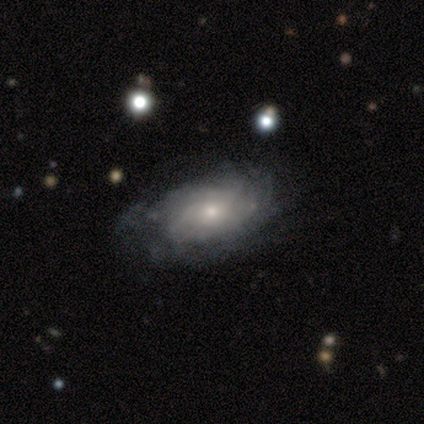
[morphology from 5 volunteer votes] Smooth or featured? 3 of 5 (60%) said featured or disk. Edge-on disk? 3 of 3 (100%) said no. Bar? 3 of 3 (100%) said no. Spiral arms? 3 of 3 (100%) said yes. Spiral winding? 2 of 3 (67%) said tight. Spiral arm count? 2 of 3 (67%) said can't tell. Bulge size? 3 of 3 (100%) said moderate. Merging? 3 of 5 (60%) said none.